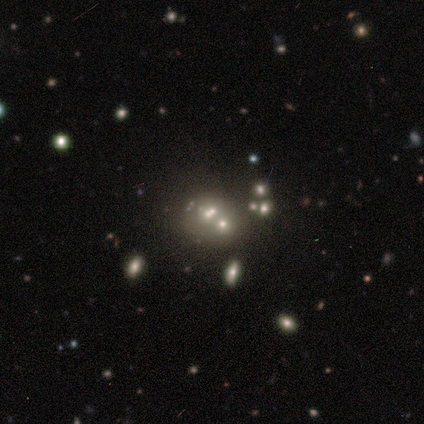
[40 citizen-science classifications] Smooth or featured? 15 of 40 (38%) said smooth. How rounded? 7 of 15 (47%) said round. Merging? 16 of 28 (57%) said merger.